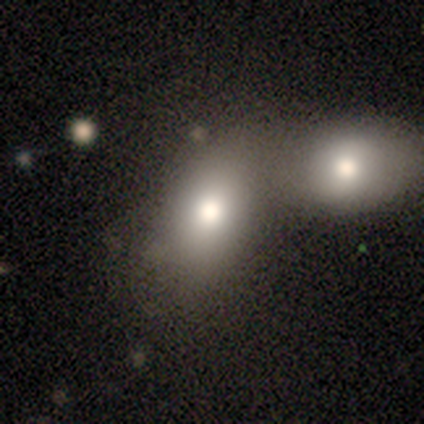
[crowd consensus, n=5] This is marginally a smooth galaxy (40%, tied with star or artifact). How rounded: clearly in between (100%). Merging: clearly merger (100%).